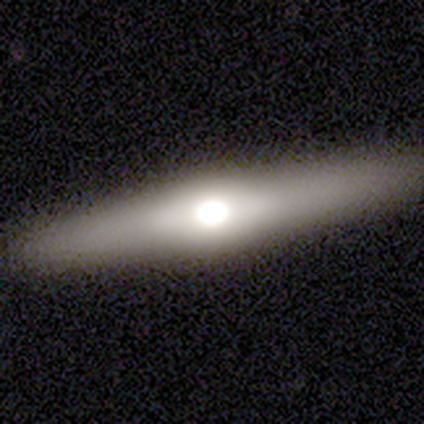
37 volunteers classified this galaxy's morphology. smooth-or-featured: featured or disk: 68% | smooth: 27% | star or artifact: 5%
  disk-edge-on: yes: 96% | no: 4%
    edge-on-bulge: rounded: 96% | boxy: 4% | none: 0%
  merging: none: 89% | minor disturbance: 11% | major disturbance: 0% | merger: 0%